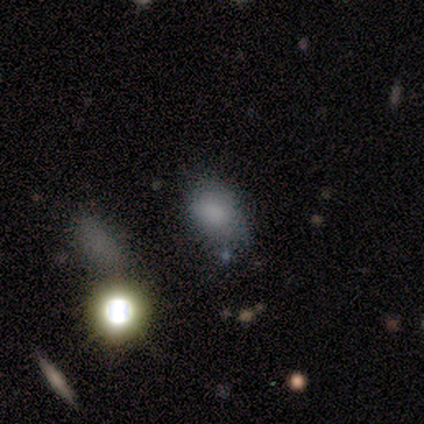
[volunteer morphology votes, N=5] Smooth or featured: smooth — 60% (featured or disk — 20%)
How rounded: in between — 67% (round — 33%)
Merging: none — 75% (minor disturbance — 25%)